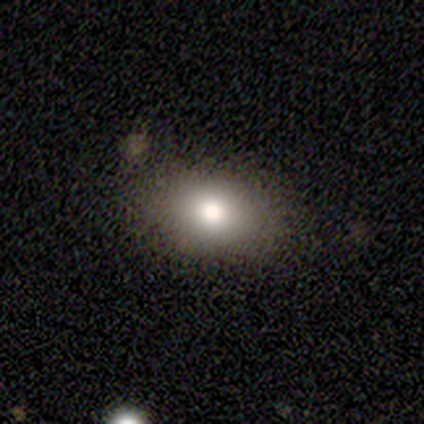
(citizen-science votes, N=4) smooth 75%, star or artifact 25%, featured or disk 0%. Down the decision tree: how rounded — in between (67%); merging — none (100%).